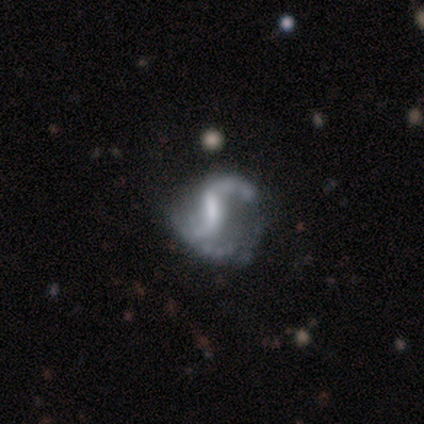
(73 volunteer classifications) A featured or disk galaxy (84%) with a strong bar (50%), 2 (91%) loose (69%) spiral arms (90%) and no central bulge (35%).

Vote fractions:
- Smooth or featured? featured or disk: 84% / smooth: 10% / star or artifact: 7%
- Edge-on disk? no: 98% / yes: 2%
- Bar? strong: 50% / weak: 38% / no: 12%
- Spiral arms? yes: 90% / no: 10%
- Spiral winding? loose: 69% / medium: 28% / tight: 4%
- Spiral arm count? 2: 91% / 1: 7% / 3: 2% / 4: 0% / more than 4: 0% / can't tell: 0%
- Bulge size? none: 35% / moderate: 28% / small: 28% / large: 8% / dominant: 0%
- Merging? none: 41% / major disturbance: 29% / minor disturbance: 26% / merger: 3%